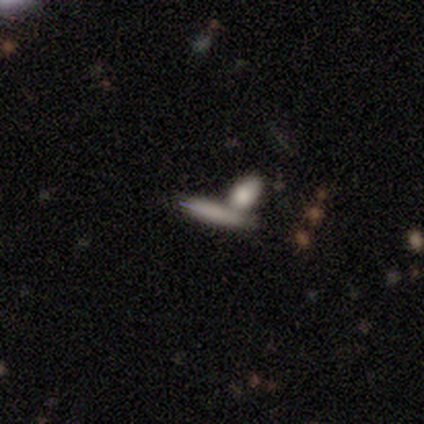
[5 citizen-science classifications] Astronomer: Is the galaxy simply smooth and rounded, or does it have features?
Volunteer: smooth — 100%.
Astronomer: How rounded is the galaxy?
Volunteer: cigar-shaped — 80%.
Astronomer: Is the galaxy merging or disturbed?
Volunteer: none — 60%.